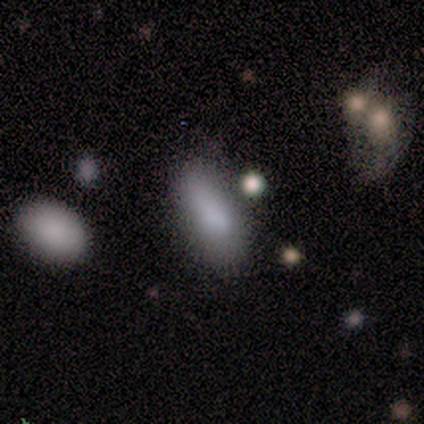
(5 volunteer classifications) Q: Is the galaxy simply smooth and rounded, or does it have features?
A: smooth — 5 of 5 (100%).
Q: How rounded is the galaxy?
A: in between — 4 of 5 (80%).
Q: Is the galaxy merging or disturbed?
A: minor disturbance — 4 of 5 (80%).